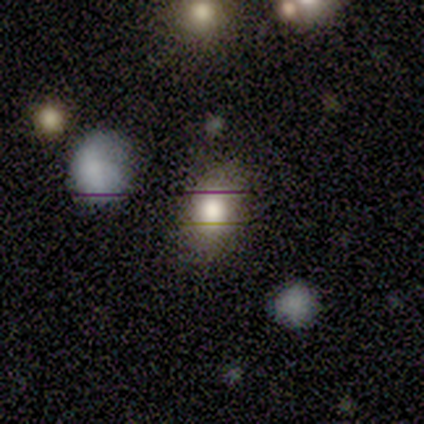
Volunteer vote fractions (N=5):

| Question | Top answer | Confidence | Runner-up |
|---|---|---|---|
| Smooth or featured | smooth | 80% | star or artifact (20%) |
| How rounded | round | 50% | tied: in between (50%) |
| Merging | none | 100% | — |